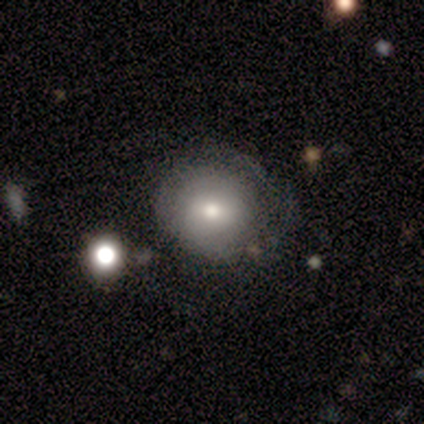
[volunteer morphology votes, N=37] A smooth galaxy with no disk features (65%) that is round (96%).

Vote fractions:
- Smooth or featured? smooth: 65% / featured or disk: 27% / star or artifact: 8%
- How rounded? round: 96% / in between: 4% / cigar-shaped: 0%
- Merging? none: 50% / minor disturbance: 35% / major disturbance: 15% / merger: 0%